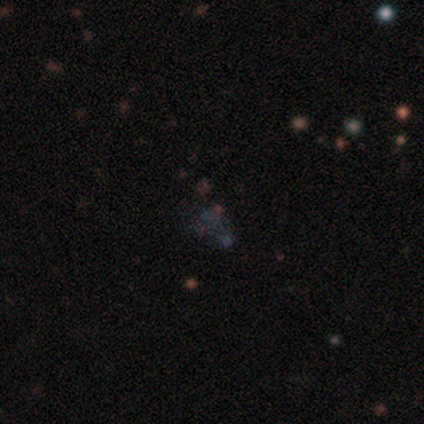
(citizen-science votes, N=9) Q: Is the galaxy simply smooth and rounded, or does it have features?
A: star or artifact — 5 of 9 (56%).